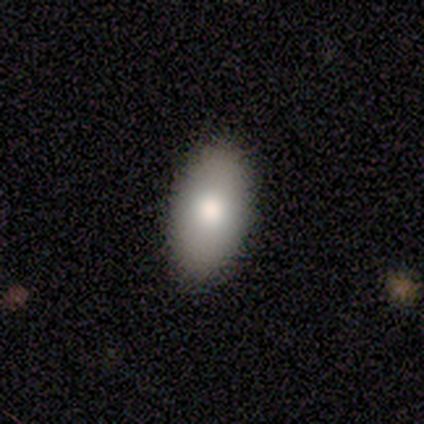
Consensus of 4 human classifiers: Volunteers were most divided on "merging": none: 75%, minor disturbance: 25%, major disturbance: 0%, merger: 0%. More confident: smooth or featured — smooth (100%); how rounded — in between (100%).